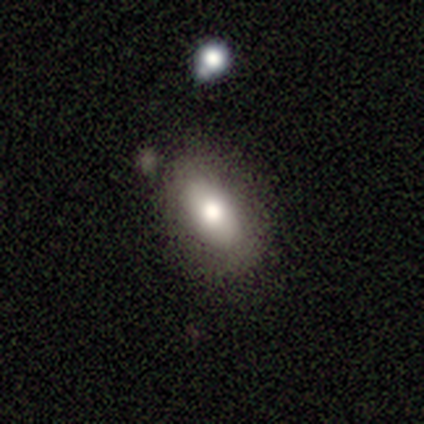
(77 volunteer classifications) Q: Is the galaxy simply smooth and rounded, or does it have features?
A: smooth — 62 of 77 (81%).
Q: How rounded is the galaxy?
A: in between — 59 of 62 (95%).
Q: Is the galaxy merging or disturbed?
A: none — 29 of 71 (41%).